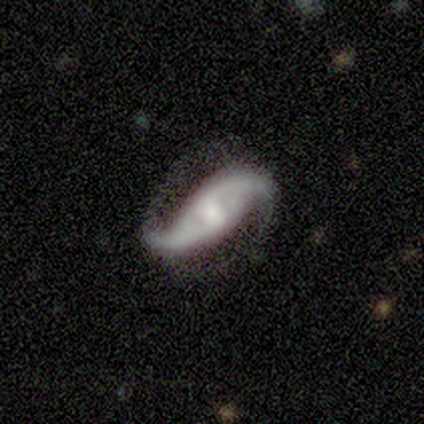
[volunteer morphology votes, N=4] type=featured or disk (100%); edge-on=no (100%); bar=weak (50%); spiral arms=yes (75%); winding=loose (67%); arm count=2 (100%); bulge=moderate (50%); merging=none (100%).